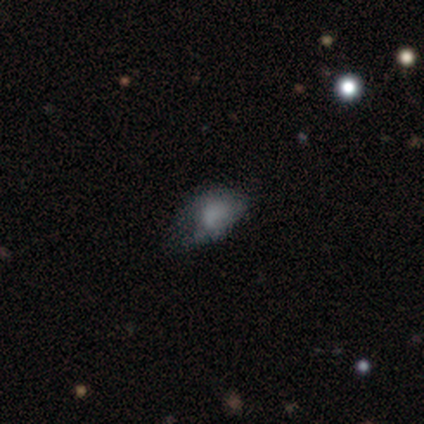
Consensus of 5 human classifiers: Volunteers were most divided on "smooth or featured" (2-way tie): featured or disk: 40%, star or artifact: 40%, smooth: 20%; "bulge size" (2-way tie): large: 50%, none: 50%, dominant: 0%, moderate: 0%, small: 0%; "merging" (3-way tie): none: 33%, minor disturbance: 33%, major disturbance: 33%, merger: 0%. More confident: edge-on disk — no (100%); bar — no (100%); spiral arms — no (100%).